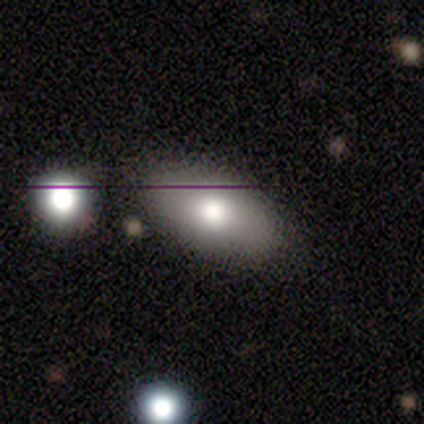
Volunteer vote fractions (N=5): smooth_or_featured: smooth (p=1.00)
how_rounded: in between (p=0.80) [alt: round p=0.20]
merging: none (p=1.00)